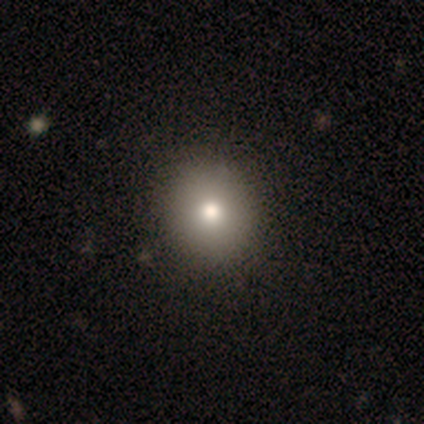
smooth 60%, featured or disk 20%, star or artifact 20%. Down the decision tree: how rounded — round (100%); merging — none (100%).